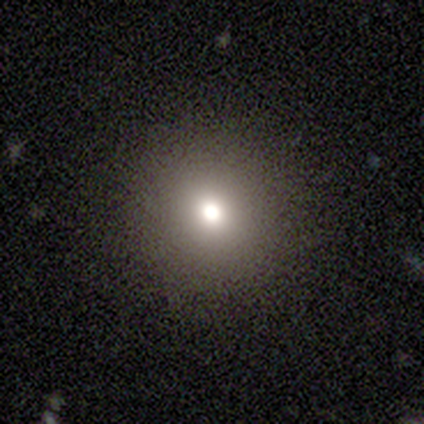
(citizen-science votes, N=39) Volunteers were most divided on "smooth or featured": smooth: 64%, star or artifact: 21%, featured or disk: 15%. More confident: how rounded — round (100%); merging — none (94%).